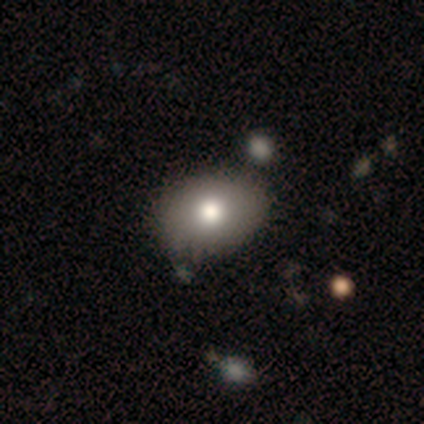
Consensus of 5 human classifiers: smooth_or_featured: smooth (p=0.60) [alt: star or artifact p=0.40]
how_rounded: in between (p=1.00)
merging: none (p=1.00)